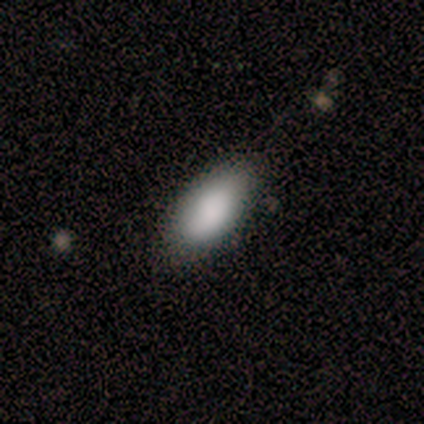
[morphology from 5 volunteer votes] Smooth or featured? smooth (100%)
How rounded? in between (100%)
Merging? minor disturbance (60%)